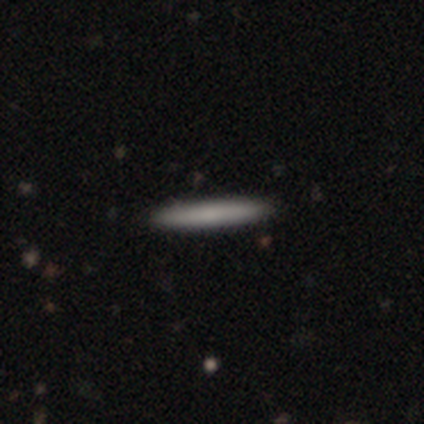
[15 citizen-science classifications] Overall: smooth (73%). How rounded: cigar-shaped (100%). Merging: none (100%).